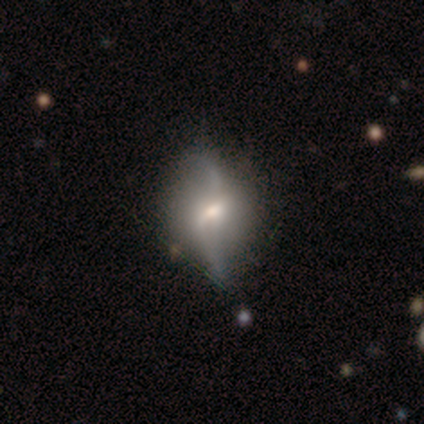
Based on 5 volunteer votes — This is clearly a featured or disk galaxy (80%). It is likely not viewed edge-on (75%). Bar: likely weak (67%). Spiral arm pattern: clearly yes (100%). Spiral arm count: clearly 2 (100%). Spiral winding: likely loose (67%). Central bulge: likely small (67%). Merging: clearly none (100%).